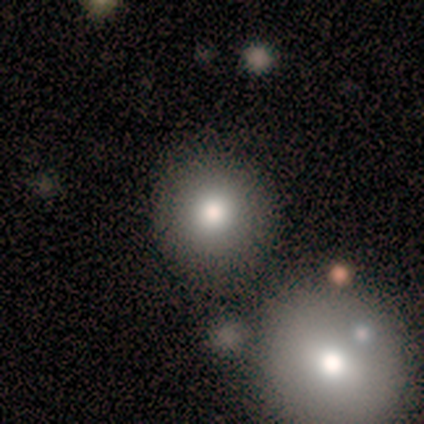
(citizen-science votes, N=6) Morphology: type=smooth (100%); roundness=round (100%); merging=none (67%).